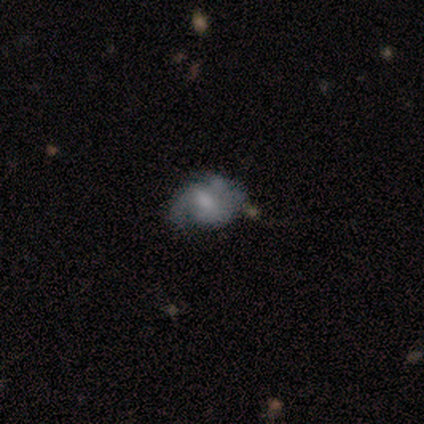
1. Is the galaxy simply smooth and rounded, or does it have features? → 100% featured or disk, 0% smooth, 0% star or artifact.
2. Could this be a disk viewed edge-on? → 67% no, 33% yes.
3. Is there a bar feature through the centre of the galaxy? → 50% strong (tied), 50% no (tied), 0% weak.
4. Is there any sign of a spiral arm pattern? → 100% yes, 0% no.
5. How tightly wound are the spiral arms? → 50% tight (tied), 50% loose (tied), 0% medium.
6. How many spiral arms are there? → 50% 2 (tied), 50% can't tell (tied), 0% 1, 0% 3, 0% 4, 0% more than 4.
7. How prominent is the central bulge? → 100% moderate, 0% dominant, 0% large, 0% small, 0% none.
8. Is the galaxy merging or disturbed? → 33% none (tied), 33% minor disturbance (tied), 33% major disturbance (tied), 0% merger.